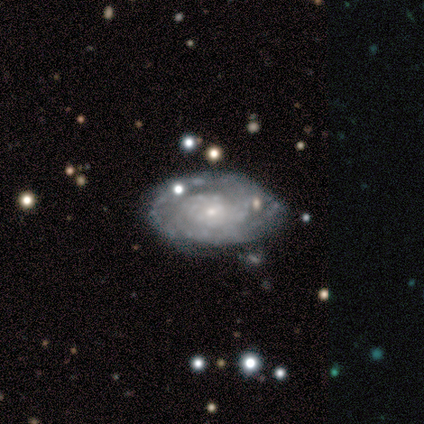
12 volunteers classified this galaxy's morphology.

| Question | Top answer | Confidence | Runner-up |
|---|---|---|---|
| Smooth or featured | featured or disk | 83% | smooth (17%) |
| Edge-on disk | no | 100% | — |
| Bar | no | 90% | weak (10%) |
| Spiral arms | yes | 100% | — |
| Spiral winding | tight | 70% | medium (30%) |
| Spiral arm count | can't tell | 60% | 2 (30%) |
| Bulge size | small | 100% | — |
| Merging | none | 83% | minor disturbance (17%) |